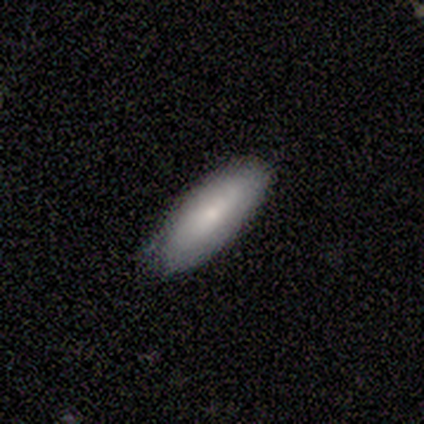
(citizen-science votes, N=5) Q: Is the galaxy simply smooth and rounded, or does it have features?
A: smooth — 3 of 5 (60%).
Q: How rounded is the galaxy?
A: in between — 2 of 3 (67%).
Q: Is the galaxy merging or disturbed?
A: none — 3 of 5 (60%).